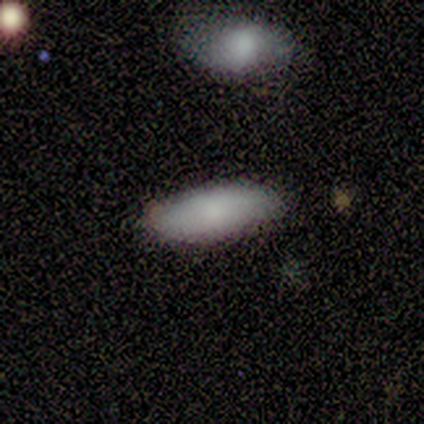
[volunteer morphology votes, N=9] This appears to be a smooth galaxy with no disk features (44%) that is in between round and cigar-shaped (100%). Merging: none (86%).